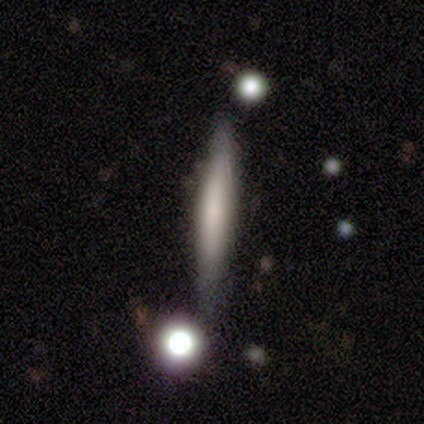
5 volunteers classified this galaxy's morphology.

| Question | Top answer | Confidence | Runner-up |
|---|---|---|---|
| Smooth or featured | smooth | 60% | featured or disk (40%) |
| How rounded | cigar-shaped | 67% | round (33%) |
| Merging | none | 80% | minor disturbance (20%) |